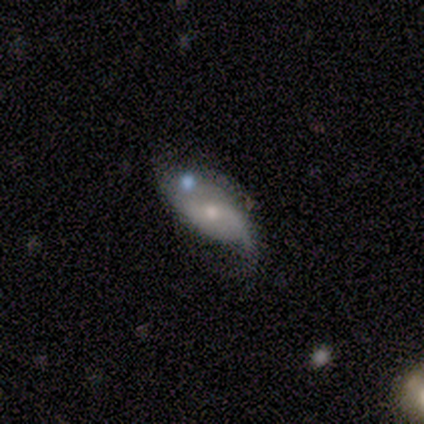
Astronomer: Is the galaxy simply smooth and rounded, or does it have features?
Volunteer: featured or disk — 88%.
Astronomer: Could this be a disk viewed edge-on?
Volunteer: no — 100%.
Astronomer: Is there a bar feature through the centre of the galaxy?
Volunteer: no — 71%.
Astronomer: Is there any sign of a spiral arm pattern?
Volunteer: yes — 71%.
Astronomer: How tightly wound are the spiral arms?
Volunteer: loose — 100%.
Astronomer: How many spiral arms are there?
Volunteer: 2 — 60% (runner-up: 1, 40%).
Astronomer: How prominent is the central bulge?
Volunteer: moderate — 43%, tied with small at 43%.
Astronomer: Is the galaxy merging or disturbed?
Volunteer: minor disturbance — 38% (runner-up: none, 25%).